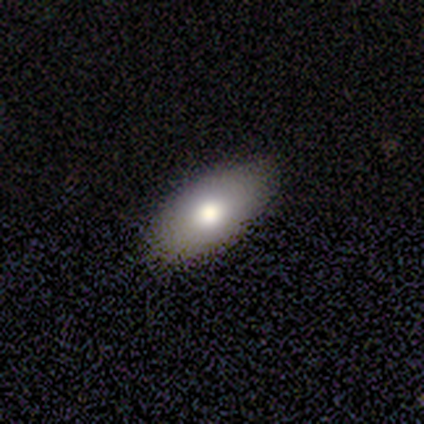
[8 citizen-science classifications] A smooth galaxy with no disk features (100%) that is in between round and cigar-shaped (100%).

Vote fractions:
- Smooth or featured? smooth: 100% / featured or disk: 0% / star or artifact: 0%
- How rounded? in between: 100% / round: 0% / cigar-shaped: 0%
- Merging? none: 88% / minor disturbance: 12% / major disturbance: 0% / merger: 0%